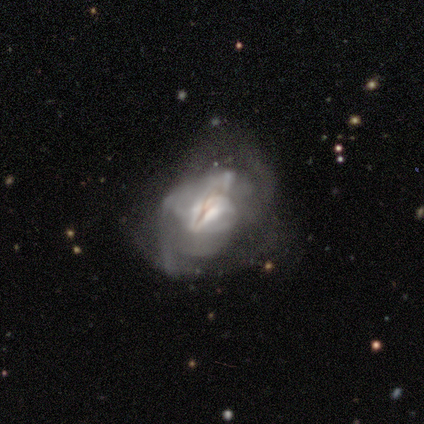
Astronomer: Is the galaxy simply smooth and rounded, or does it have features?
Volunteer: featured or disk — 100%.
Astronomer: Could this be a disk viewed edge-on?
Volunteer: no — 100%.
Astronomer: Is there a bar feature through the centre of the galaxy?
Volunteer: no — 60% (runner-up: weak, 40%).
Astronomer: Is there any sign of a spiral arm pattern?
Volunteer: yes — 60% (runner-up: no, 40%).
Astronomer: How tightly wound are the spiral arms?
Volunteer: medium — 67%.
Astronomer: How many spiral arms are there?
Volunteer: can't tell — 67%.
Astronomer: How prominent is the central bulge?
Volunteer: large — 40% (runner-up: dominant, 20%).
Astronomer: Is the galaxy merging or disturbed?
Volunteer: major disturbance — 80%.